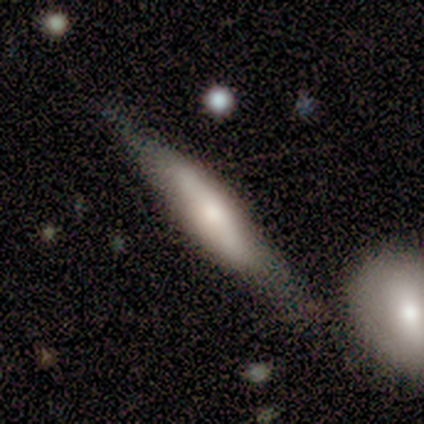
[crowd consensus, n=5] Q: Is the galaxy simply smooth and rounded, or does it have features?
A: featured or disk — 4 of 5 (80%).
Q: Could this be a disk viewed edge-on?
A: yes — 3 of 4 (75%).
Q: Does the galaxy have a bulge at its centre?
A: none — 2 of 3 (67%).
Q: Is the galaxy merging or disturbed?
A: none — 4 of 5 (80%).